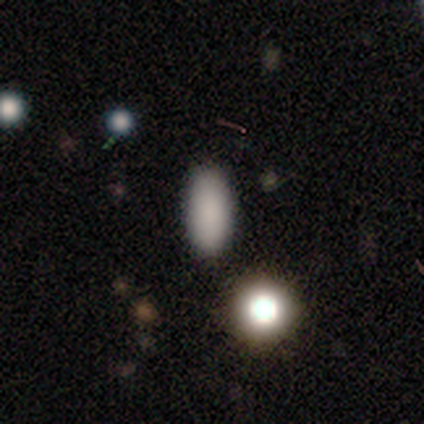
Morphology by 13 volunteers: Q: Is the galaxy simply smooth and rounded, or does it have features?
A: smooth — 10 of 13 (77%).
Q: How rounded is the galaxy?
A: in between — 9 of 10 (90%).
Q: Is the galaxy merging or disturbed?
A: none — 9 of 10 (90%).